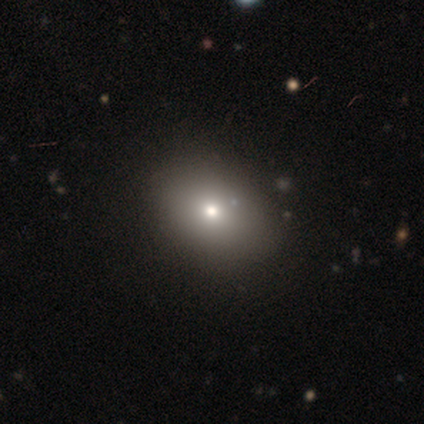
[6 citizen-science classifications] This appears to be a smooth galaxy with no disk features (83%) that is round (60%). Merging: none (100%).